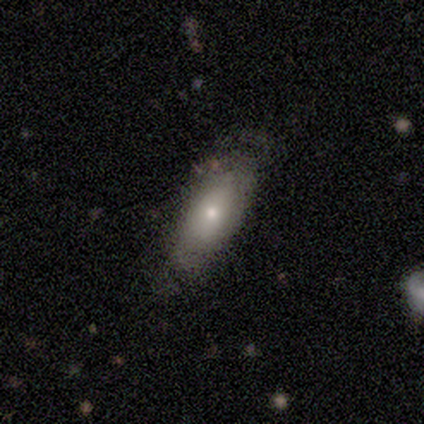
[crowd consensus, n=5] smooth-or-featured: smooth: 60% | featured or disk: 20% | star or artifact: 20%
  how-rounded: cigar-shaped: 67% | in between: 33% | round: 0%
  merging: minor disturbance: 50% | none: 25% | major disturbance: 25% | merger: 0%